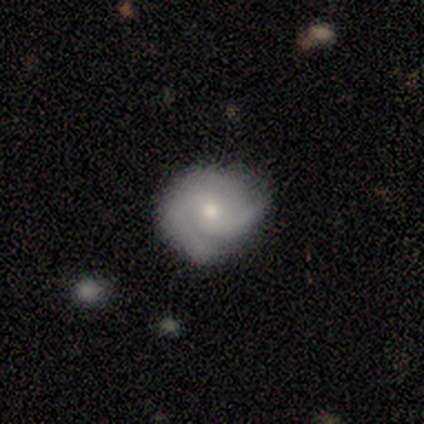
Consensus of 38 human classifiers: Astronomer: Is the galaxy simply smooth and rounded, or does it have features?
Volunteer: featured or disk — 76%.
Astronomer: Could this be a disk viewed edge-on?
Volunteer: no — 100%.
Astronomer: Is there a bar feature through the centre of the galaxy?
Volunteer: no — 62%.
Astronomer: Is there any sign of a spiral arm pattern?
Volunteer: yes — 97%.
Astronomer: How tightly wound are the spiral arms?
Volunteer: tight — 64%.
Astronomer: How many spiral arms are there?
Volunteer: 2 — 75%.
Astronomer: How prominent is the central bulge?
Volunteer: small — 55% (runner-up: moderate, 45%).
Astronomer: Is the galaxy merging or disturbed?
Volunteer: none — 54% (runner-up: minor disturbance, 43%).